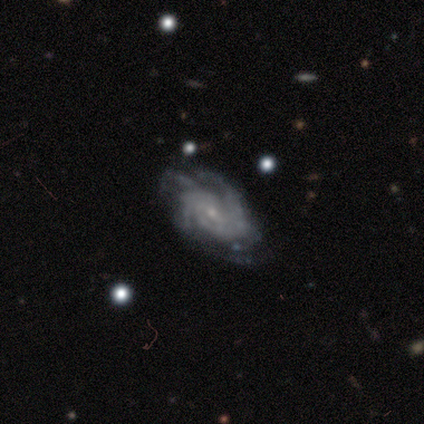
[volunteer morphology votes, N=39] Smooth or featured: featured or disk — 90% (smooth — 8%)
Edge-on disk: no — 100%
Bar: no — 74% (weak — 23%)
Spiral arms: yes — 100%
Spiral winding: tight — 54% (medium — 34%)
Spiral arm count: 3 — 29% (can't tell — 26%)
Bulge size: small — 89% (moderate — 6%)
Merging: none — 63% (minor disturbance — 32%)